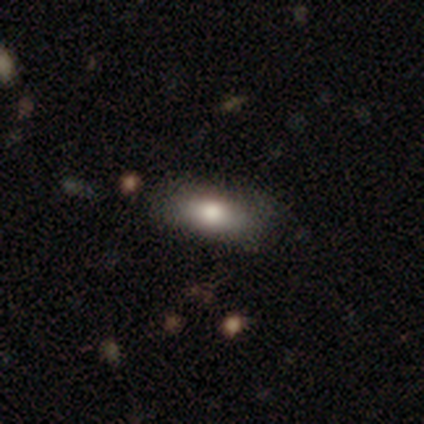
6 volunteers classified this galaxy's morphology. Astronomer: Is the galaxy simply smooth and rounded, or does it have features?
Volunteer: smooth — 83%.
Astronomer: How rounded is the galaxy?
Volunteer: in between — 80%.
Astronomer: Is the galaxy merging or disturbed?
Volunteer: none — 100%.